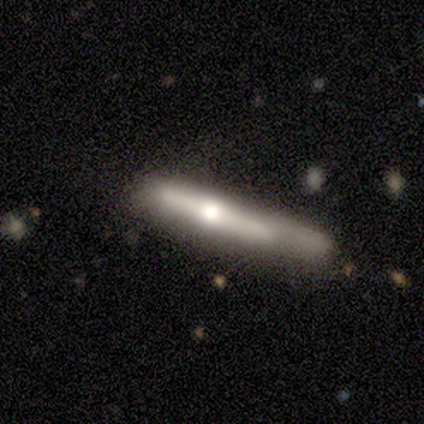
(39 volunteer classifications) Q: Smooth or featured?
A: featured or disk (54%); runner-up: smooth (46%)
Q: Edge-on disk?
A: yes (100%)
Q: Edge-on bulge?
A: rounded (76%); runner-up: none (24%)
Q: Merging?
A: none (41%); runner-up: minor disturbance (31%)